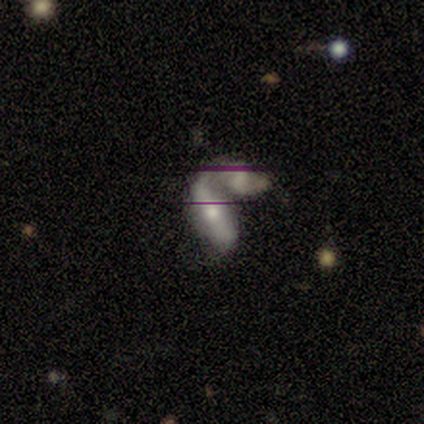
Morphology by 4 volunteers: This appears to be a featured or disk galaxy (75%) with no bar (100%), 1 (100%) loose (100%) spiral arms (50%, tied with no) and a moderate central bulge (50%, tied with small). Merging: merger (100%).